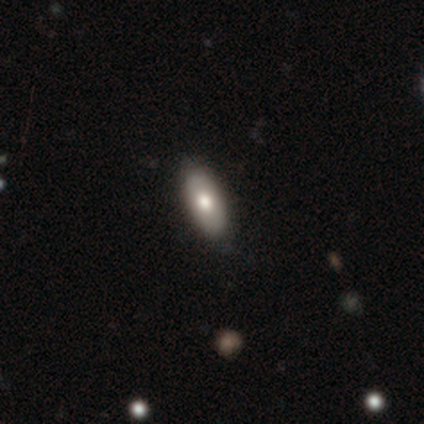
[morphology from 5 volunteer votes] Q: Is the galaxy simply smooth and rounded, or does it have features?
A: smooth — 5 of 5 (100%).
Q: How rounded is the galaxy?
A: in between — 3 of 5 (60%).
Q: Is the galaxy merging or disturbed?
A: major disturbance — 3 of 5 (60%).